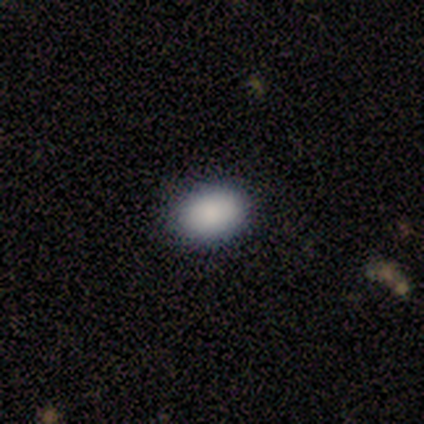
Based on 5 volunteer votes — smooth_or_featured: smooth (p=1.00)
how_rounded: in between (p=0.80) [alt: round p=0.20]
merging: none (p=1.00)